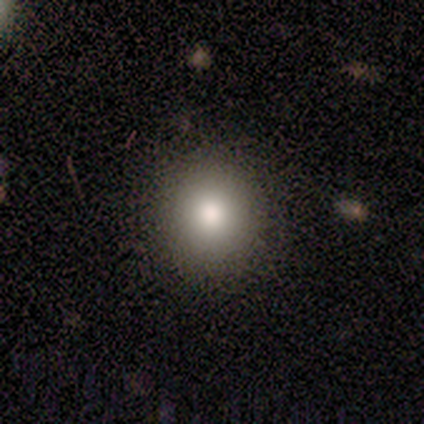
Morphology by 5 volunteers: smooth-or-featured: smooth: 100% | featured or disk: 0% | star or artifact: 0%
  how-rounded: round: 80% | in between: 20% | cigar-shaped: 0%
  merging: none: 100% | minor disturbance: 0% | major disturbance: 0% | merger: 0%